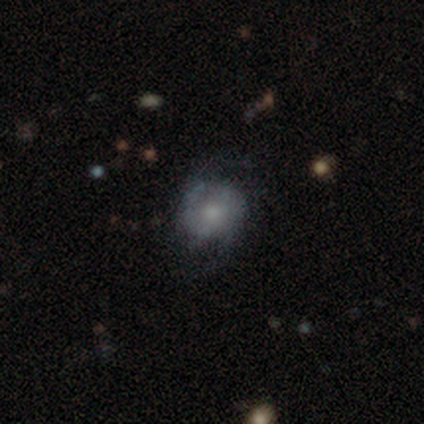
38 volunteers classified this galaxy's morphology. smooth_or_featured: featured or disk (p=0.53) [alt: smooth p=0.42]
disk_edge_on: no (p=0.95) [alt: yes p=0.05]
bar: no (p=0.68) [alt: strong p=0.16]
has_spiral_arms: yes (p=0.74) [alt: no p=0.26]
spiral_winding: tight (p=0.43) [tied with: loose p=0.43]
spiral_arm_count: 2 (p=0.57) [alt: can't tell p=0.29]
bulge_size: moderate (p=0.47) [alt: small p=0.32]
merging: none (p=0.61) [alt: minor disturbance p=0.28]